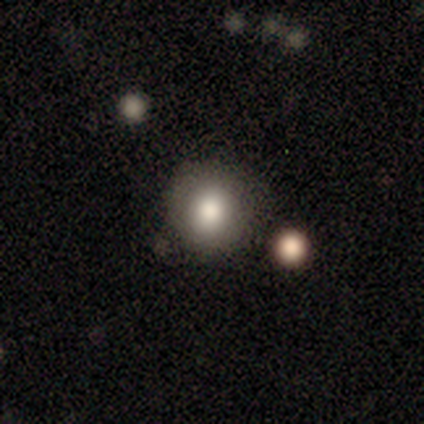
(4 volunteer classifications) A smooth galaxy with no disk features (100%) that is round (75%).

Vote fractions:
- Smooth or featured? smooth: 100% / featured or disk: 0% / star or artifact: 0%
- How rounded? round: 75% / in between: 25% / cigar-shaped: 0%
- Merging? none: 50% / minor disturbance: 25% / merger: 25% / major disturbance: 0%